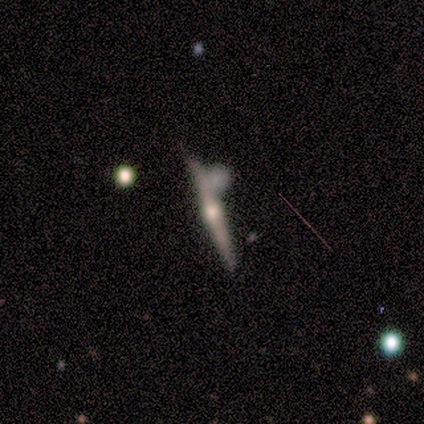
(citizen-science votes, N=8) This appears to be a featured or disk galaxy (75%) viewed edge-on (100%) with a rounded central bulge (100%). Merging: none (75%).